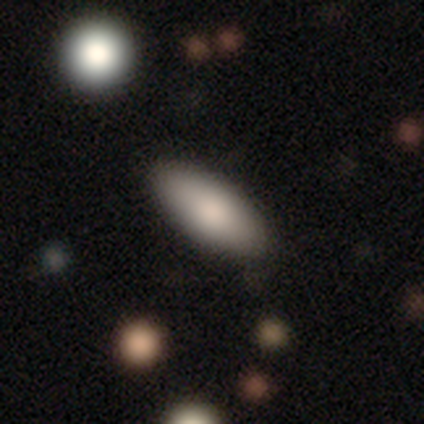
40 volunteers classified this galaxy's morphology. Overall: smooth (78%). How rounded: in between (77%). Merging: none (82%).